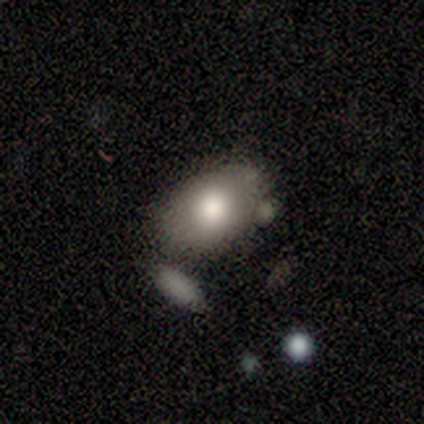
smooth_or_featured: smooth (p=0.67) [alt: featured or disk p=0.33]
how_rounded: in between (p=1.00)
merging: merger (p=0.50) [alt: none p=0.33]